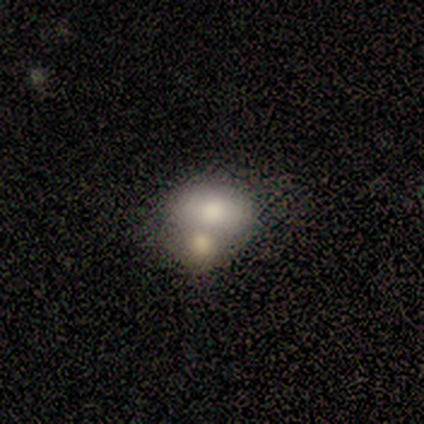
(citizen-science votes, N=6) Volunteers were most divided on "smooth or featured" (2-way tie): smooth: 50%, featured or disk: 50%, star or artifact: 0%. More confident: how rounded — in between (100%); merging — merger (67%).